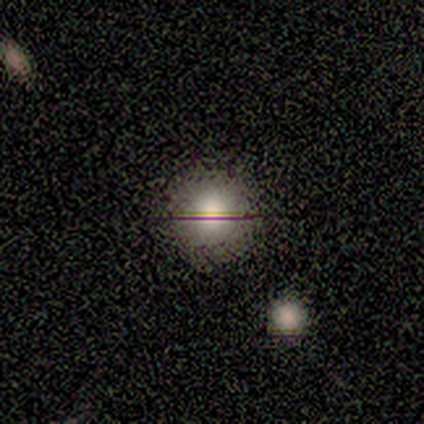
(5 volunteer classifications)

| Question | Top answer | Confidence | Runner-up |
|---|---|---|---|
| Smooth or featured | smooth | 80% | featured or disk (20%) |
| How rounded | round | 100% | — |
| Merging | none | 100% | — |